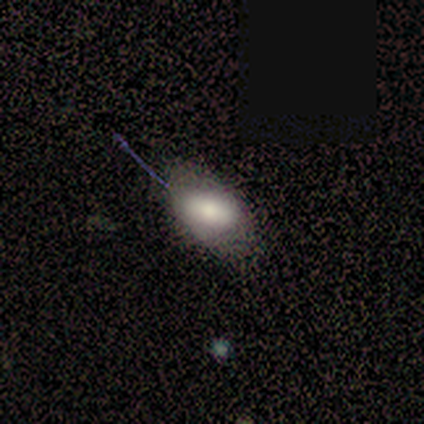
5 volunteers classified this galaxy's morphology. This appears to be a smooth galaxy with no disk features (60%) that is in between round and cigar-shaped (100%). Merging: none (60%).